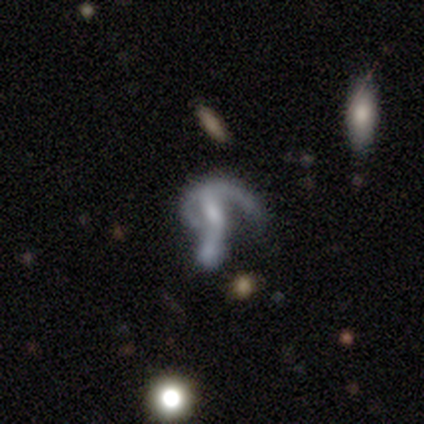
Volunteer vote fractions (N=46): Smooth or featured: featured or disk — 74% (star or artifact — 15%)
Edge-on disk: no — 91% (yes — 9%)
Bar: weak — 55% (no — 42%)
Spiral arms: yes — 71% (no — 29%)
Spiral winding: loose — 68% (medium — 23%)
Spiral arm count: 2 — 41% (1 — 36%)
Bulge size: small — 48% (none — 26%)
Merging: merger — 33% (none — 28%)